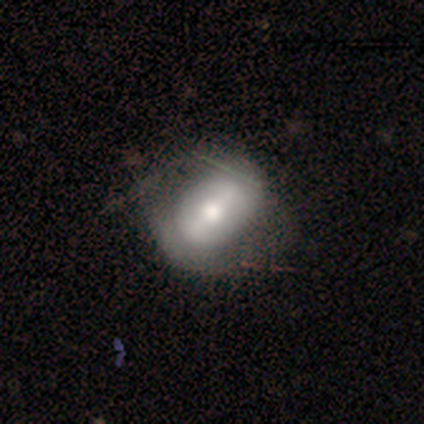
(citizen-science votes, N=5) smooth_or_featured: featured or disk (p=0.60) [alt: smooth p=0.40]
disk_edge_on: no (p=0.67) [alt: yes p=0.33]
bar: weak (p=0.50) [tied with: no p=0.50]
has_spiral_arms: no (p=1.00)
bulge_size: moderate (p=0.50) [tied with: small p=0.50]
merging: minor disturbance (p=0.60) [alt: none p=0.20]